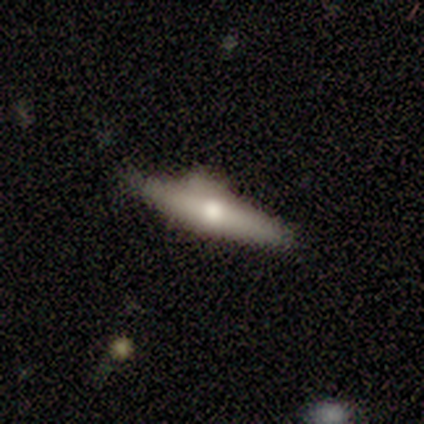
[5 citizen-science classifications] Morphology: type=featured or disk (60%); edge-on=yes (100%); edge-on bulge=rounded (67%); merging=minor disturbance (80%).